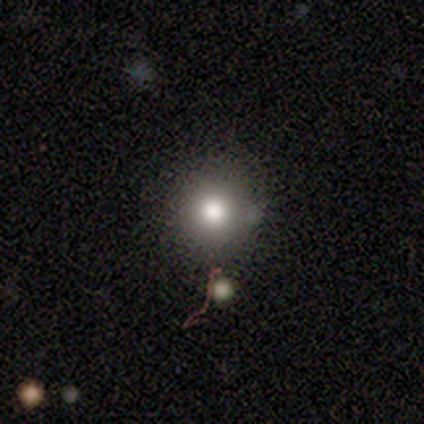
Morphology: type=smooth (67%); roundness=round (97%); merging=none (78%).